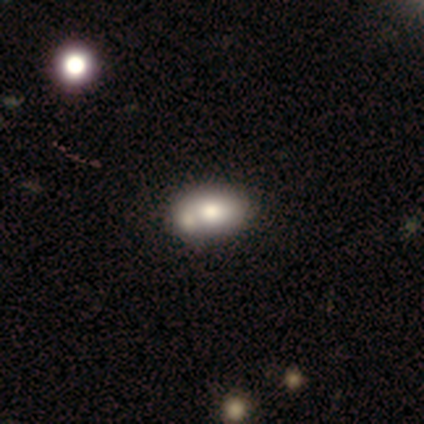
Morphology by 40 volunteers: type=smooth (68%); roundness=in between (89%); merging=merger (46%).